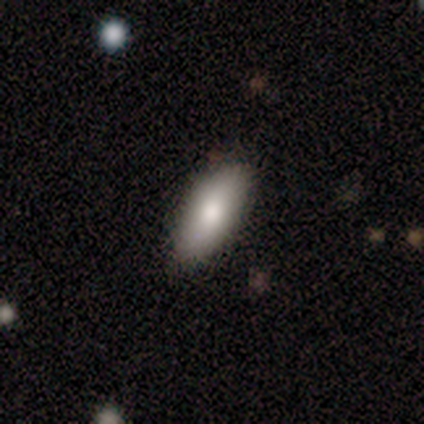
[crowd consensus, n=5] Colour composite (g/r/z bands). It shows a smooth galaxy with no disk features (40%, tied with featured or disk) that is in between round and cigar-shaped (100%). Merging: none (75%).